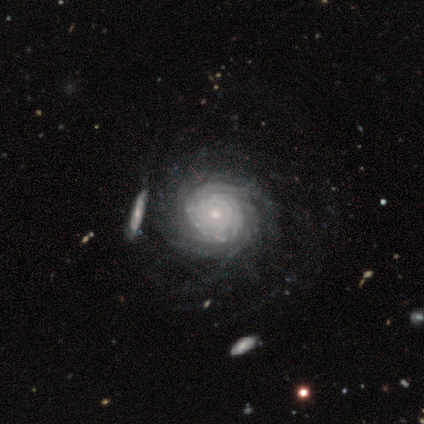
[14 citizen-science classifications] Volunteers were most divided on "spiral arm count" (2-way tie): more than 4: 43%, can't tell: 43%, 3: 7%, 4: 7%, 1: 0%, 2: 0%. More confident: smooth or featured — featured or disk (100%); edge-on disk — no (100%); spiral arms — yes (100%); merging — none (86%); spiral winding — tight (79%); bar — no (79%); bulge size — small (79%).